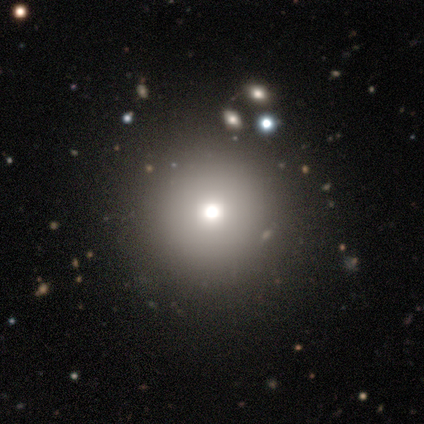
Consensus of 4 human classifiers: This is likely a smooth galaxy (75%). How rounded: clearly round (100%). Merging: clearly none (100%).